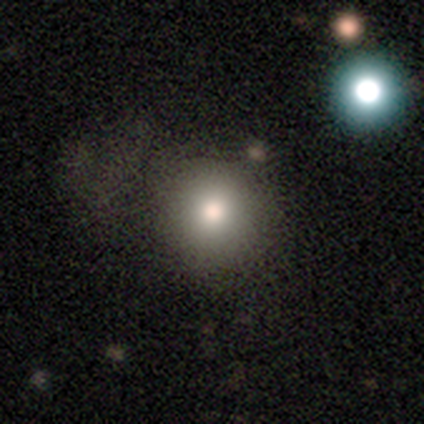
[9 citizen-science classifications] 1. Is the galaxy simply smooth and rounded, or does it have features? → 56% smooth, 33% featured or disk, 11% star or artifact.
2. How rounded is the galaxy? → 100% round, 0% in between, 0% cigar-shaped.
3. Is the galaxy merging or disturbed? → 50% none, 38% minor disturbance, 12% major disturbance, 0% merger.